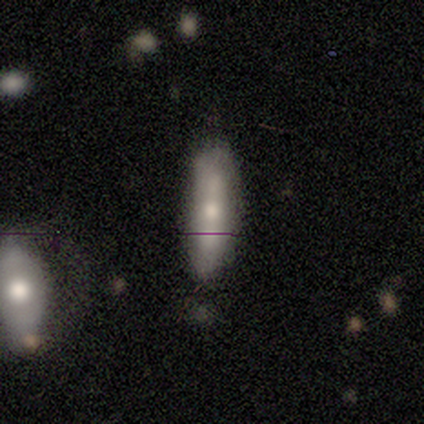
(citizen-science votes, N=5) Overall: smooth (80%). How rounded: in between (50%, tied with cigar-shaped). Merging: none (60%; minor disturbance 20%).